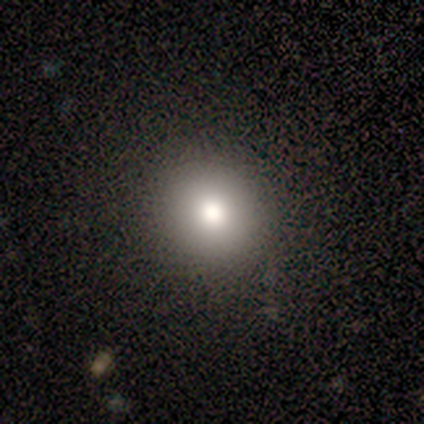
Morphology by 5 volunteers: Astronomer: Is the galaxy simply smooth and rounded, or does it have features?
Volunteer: smooth — 100%.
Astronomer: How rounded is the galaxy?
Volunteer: round — 100%.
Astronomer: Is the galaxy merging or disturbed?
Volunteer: none — 100%.